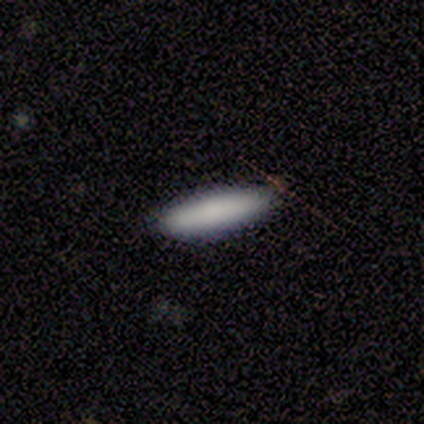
smooth 100%, featured or disk 0%, star or artifact 0%. Down the decision tree: how rounded — cigar-shaped (75%); merging — none (75%).